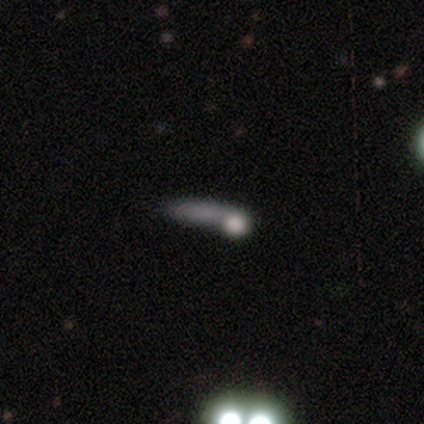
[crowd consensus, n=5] Smooth or featured: smooth — 60% (featured or disk — 20%)
How rounded: cigar-shaped — 100%
Merging: major disturbance — 75% (none — 25%)